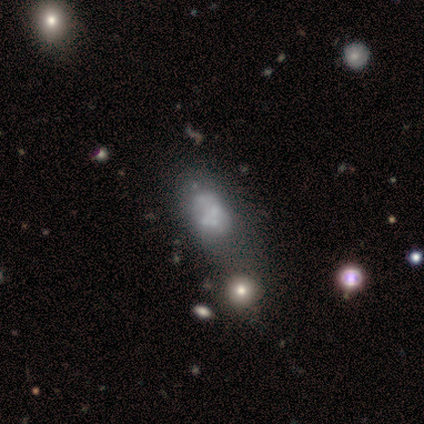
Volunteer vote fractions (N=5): This is likely a featured or disk galaxy (60%). It is clearly not viewed edge-on (100%). Bar: clearly no (100%). Spiral arm pattern: clearly no (100%). Central bulge: likely none (67%). Merging: possibly minor disturbance (50%).